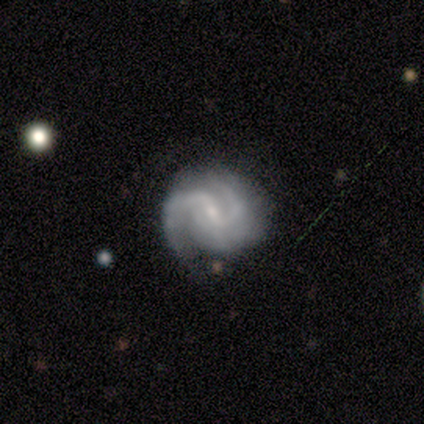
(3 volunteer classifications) A featured or disk galaxy (100%) with a weak bar (100%), 2 (100%) medium (100%) spiral arms (100%) and a small central bulge (67%).

Vote fractions:
- Smooth or featured? featured or disk: 100% / smooth: 0% / star or artifact: 0%
- Edge-on disk? no: 100% / yes: 0%
- Bar? weak: 100% / strong: 0% / no: 0%
- Spiral arms? yes: 100% / no: 0%
- Spiral winding? medium: 100% / tight: 0% / loose: 0%
- Spiral arm count? 2: 100% / 1: 0% / 3: 0% / 4: 0% / more than 4: 0% / can't tell: 0%
- Bulge size? small: 67% / moderate: 33% / dominant: 0% / large: 0% / none: 0%
- Merging? none: 67% / minor disturbance: 33% / major disturbance: 0% / merger: 0%